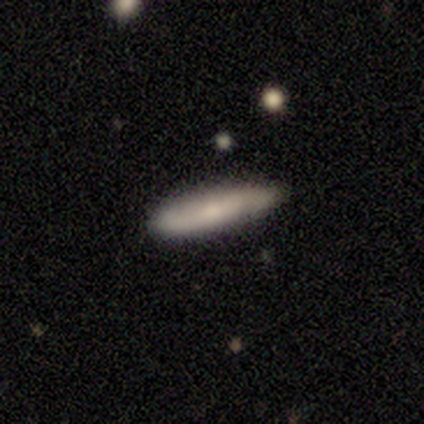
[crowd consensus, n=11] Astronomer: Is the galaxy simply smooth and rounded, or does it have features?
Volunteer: smooth — 55% (runner-up: featured or disk, 36%).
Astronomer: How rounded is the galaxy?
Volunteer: cigar-shaped — 67%.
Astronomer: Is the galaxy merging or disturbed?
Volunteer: none — 90%.